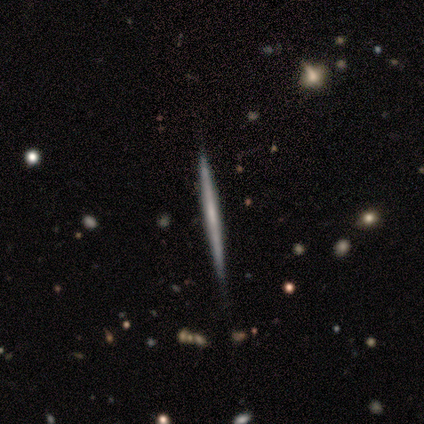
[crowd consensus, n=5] featured or disk 60%, smooth 40%, star or artifact 0%. Down the decision tree: edge-on disk — yes (100%); edge-on bulge — none (67%); merging — none (80%).